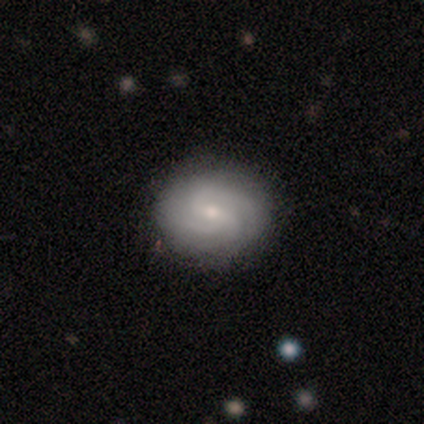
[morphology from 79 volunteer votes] Volunteers were most divided on "spiral arm count" (2-way tie): 3: 31%, can't tell: 31%, 2: 22%, 4: 16%, 1: 0%, more than 4: 0%. Remaining: edge-on disk — no (100%); spiral arms — yes (95%); smooth or featured — featured or disk (77%); bulge size — small (59%); merging — none (58%); spiral winding — medium (48%); bar — weak (48%).